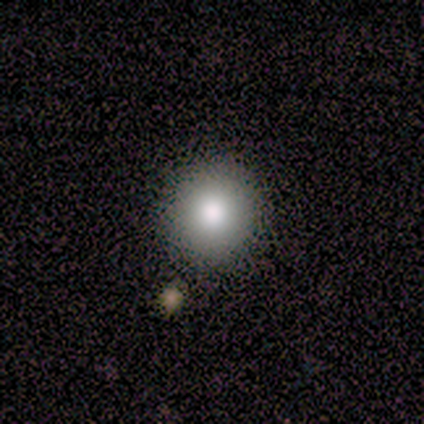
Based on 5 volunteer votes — Smooth or featured?
  - smooth: 80% *
  - star or artifact: 20%
  - featured or disk: 0%
How rounded?
  - round: 100% *
  - in between: 0%
  - cigar-shaped: 0%
Merging?
  - none: 75% *
  - minor disturbance: 25%
  - major disturbance: 0%
  - merger: 0%